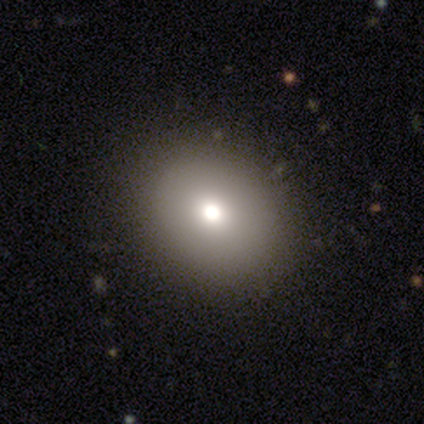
Q: Smooth or featured?
A: smooth (81%); runner-up: featured or disk (11%)
Q: How rounded?
A: round (63%); runner-up: in between (37%)
Q: Merging?
A: none (45%); runner-up: minor disturbance (3%)